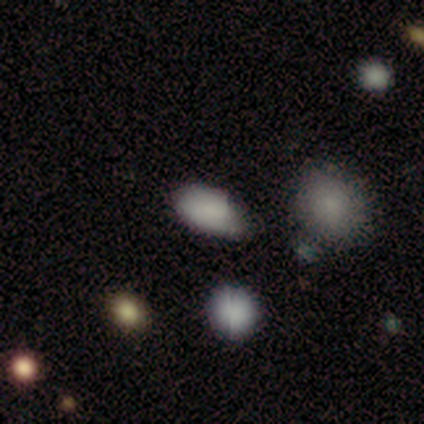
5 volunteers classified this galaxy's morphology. type=smooth (100%); roundness=in between (80%); merging=none (80%).